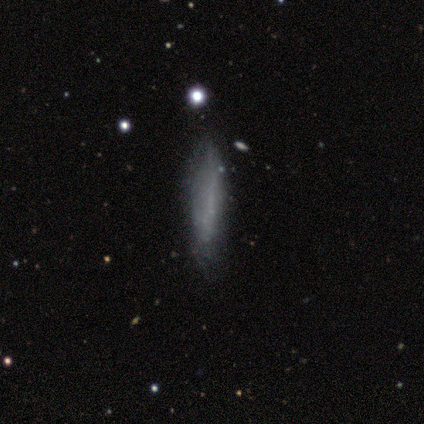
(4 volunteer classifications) smooth_or_featured: smooth (p=0.75) [alt: featured or disk p=0.25]
how_rounded: cigar-shaped (p=1.00)
merging: none (p=0.50) [alt: minor disturbance p=0.25]